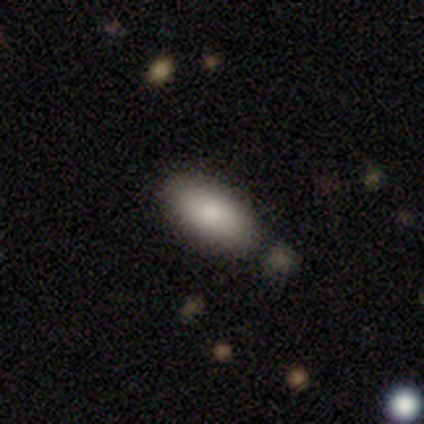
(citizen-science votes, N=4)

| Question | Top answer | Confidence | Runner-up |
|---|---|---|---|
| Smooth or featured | smooth | 75% | featured or disk (25%) |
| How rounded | in between | 100% | — |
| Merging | none | 100% | — |